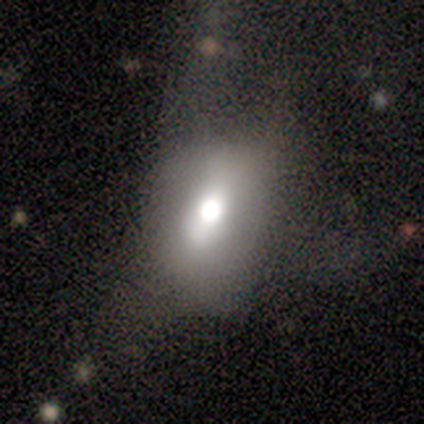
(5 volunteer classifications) Volunteers were most divided on "smooth or featured": smooth: 60%, star or artifact: 40%, featured or disk: 0%. More confident: how rounded — round (100%); merging — major disturbance (67%).